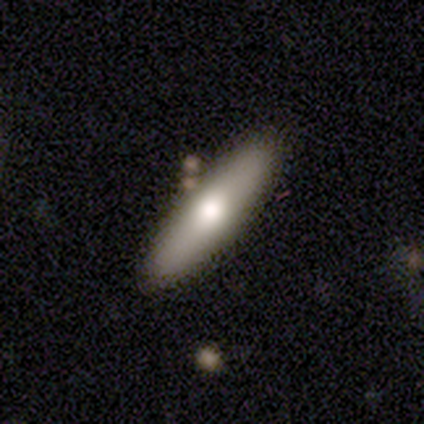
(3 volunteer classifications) Smooth or featured?
  - featured or disk: 67% *
  - smooth: 33%
  - star or artifact: 0%
Edge-on disk?
  - yes: 100% *
  - no: 0%
Edge-on bulge?
  - rounded: 100% *
  - boxy: 0%
  - none: 0%
Merging?
  - none: 100% *
  - minor disturbance: 0%
  - major disturbance: 0%
  - merger: 0%